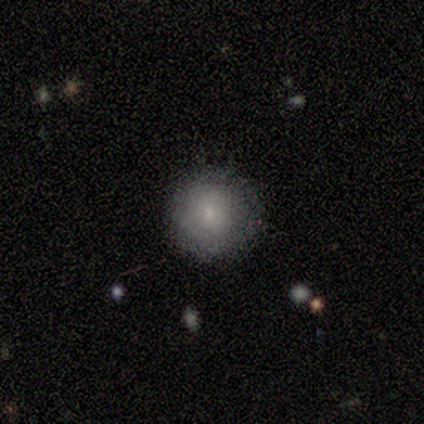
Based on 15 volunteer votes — smooth-or-featured: smooth: 67% | featured or disk: 27% | star or artifact: 7%
  how-rounded: round: 100% | in between: 0% | cigar-shaped: 0%
  merging: none: 86% | minor disturbance: 14% | major disturbance: 0% | merger: 0%